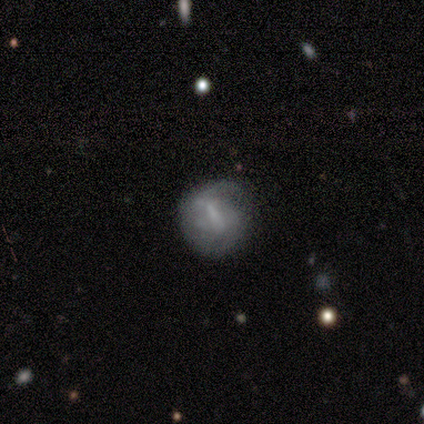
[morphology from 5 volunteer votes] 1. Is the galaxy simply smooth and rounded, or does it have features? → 60% smooth, 40% featured or disk, 0% star or artifact.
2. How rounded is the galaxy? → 100% round, 0% in between, 0% cigar-shaped.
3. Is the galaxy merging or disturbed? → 60% none, 40% minor disturbance, 0% major disturbance, 0% merger.